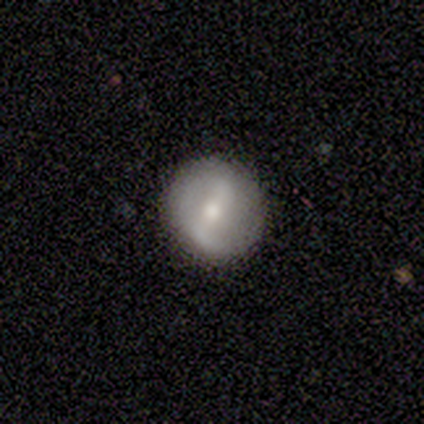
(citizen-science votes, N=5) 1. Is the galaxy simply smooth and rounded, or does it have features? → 60% smooth, 40% featured or disk, 0% star or artifact.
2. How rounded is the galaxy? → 100% round, 0% in between, 0% cigar-shaped.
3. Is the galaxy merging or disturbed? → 100% none, 0% minor disturbance, 0% major disturbance, 0% merger.